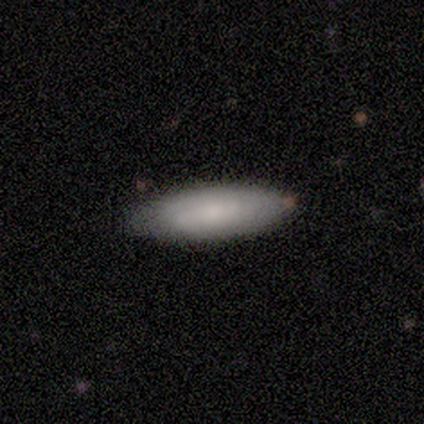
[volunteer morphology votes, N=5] Volunteers were most divided on "merging": minor disturbance: 60%, none: 40%, major disturbance: 0%, merger: 0%. More confident: smooth or featured — smooth (100%); how rounded — in between (80%).